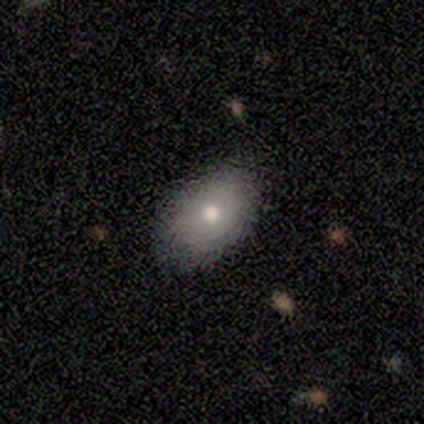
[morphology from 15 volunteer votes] This is clearly a smooth galaxy (80%). How rounded: clearly in between (83%). Merging: clearly none (93%).